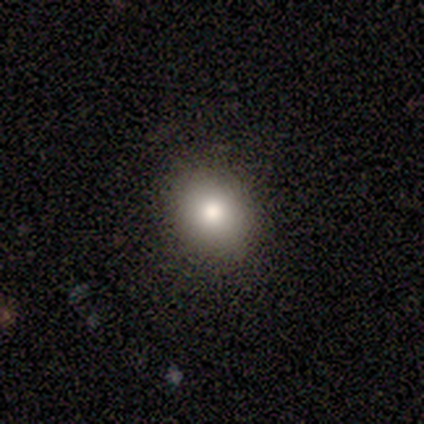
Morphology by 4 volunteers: A smooth galaxy with no disk features (50%, tied with star or artifact) that is round (50%, tied with in between). Merging: none (100%).